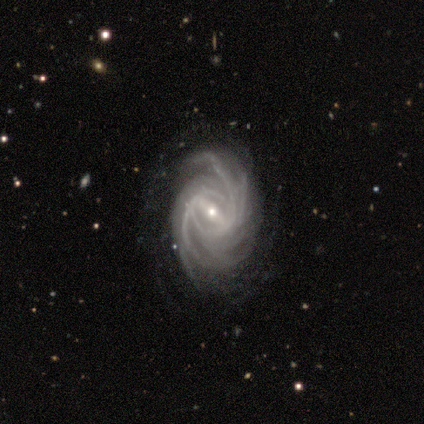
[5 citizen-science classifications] Morphology: type=featured or disk (100%); edge-on=no (100%); bar=strong (100%); spiral arms=yes (100%); winding=tight (60%); arm count=more than 4 (60%); bulge=moderate (40%, tied with small); merging=none (80%).